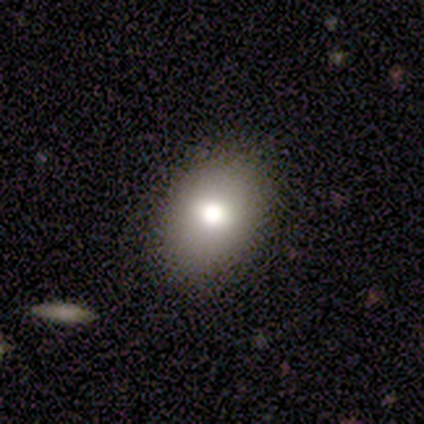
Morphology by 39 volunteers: smooth_or_featured: smooth (p=0.82) [alt: featured or disk p=0.13]
how_rounded: in between (p=0.59) [alt: round p=0.38]
merging: none (p=0.81) [alt: minor disturbance p=0.14]